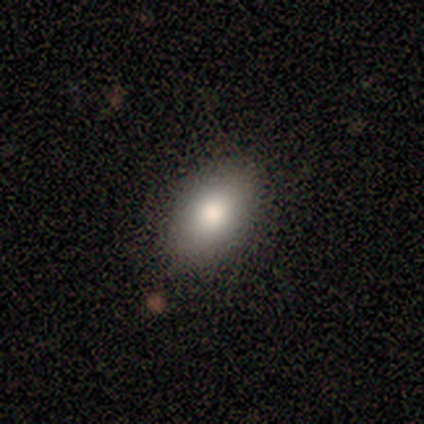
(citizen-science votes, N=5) Smooth or featured: smooth — 80% (featured or disk — 20%)
How rounded: in between — 75% (round — 25%)
Merging: none — 100%